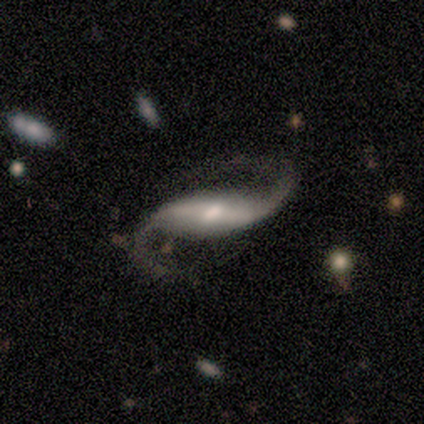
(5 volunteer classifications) A featured or disk galaxy (100%) with a strong bar (50%), 2 (100%) medium (50%, tied with loose) spiral arms (100%) and a moderate central bulge (75%).

Vote fractions:
- Smooth or featured? featured or disk: 100% / smooth: 0% / star or artifact: 0%
- Edge-on disk? no: 80% / yes: 20%
- Bar? strong: 50% / weak: 25% / no: 25%
- Spiral arms? yes: 100% / no: 0%
- Spiral winding? medium: 50% (tied) / loose: 50% (tied) / tight: 0%
- Spiral arm count? 2: 100% / 1: 0% / 3: 0% / 4: 0% / more than 4: 0% / can't tell: 0%
- Bulge size? moderate: 75% / none: 25% / dominant: 0% / large: 0% / small: 0%
- Merging? none: 100% / minor disturbance: 0% / major disturbance: 0% / merger: 0%